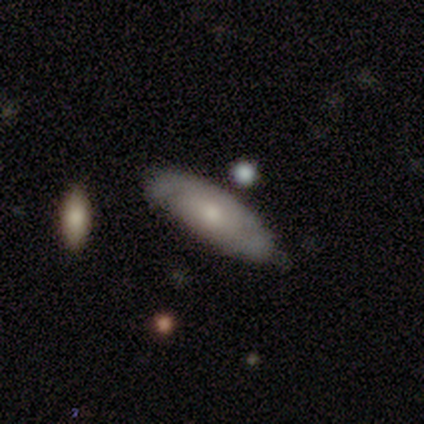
Morphology: type=smooth (60%); roundness=in between (100%); merging=none (60%).